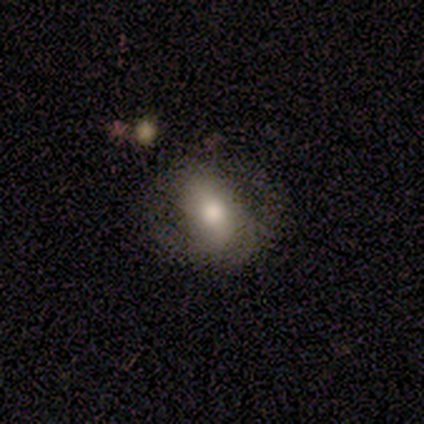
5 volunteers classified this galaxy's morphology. Smooth or featured? 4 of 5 (80%) said smooth. How rounded? 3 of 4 (75%) said in between. Merging? 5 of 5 (100%) said none.